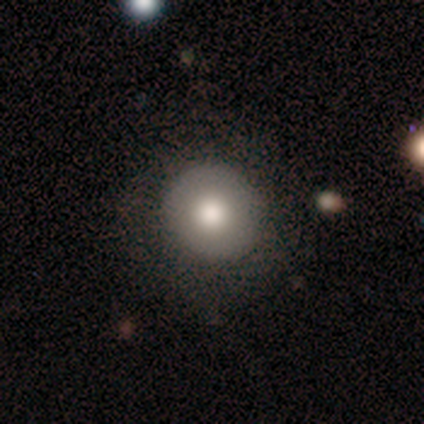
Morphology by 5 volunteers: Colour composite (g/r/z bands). It shows a smooth galaxy with no disk features (80%) that is round (100%). Merging: none (80%).